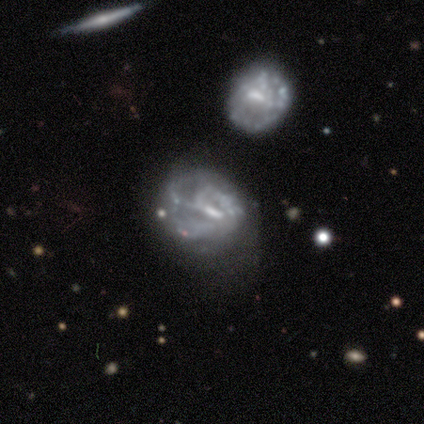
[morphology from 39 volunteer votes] Smooth or featured? 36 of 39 (92%) said featured or disk. Edge-on disk? 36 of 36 (100%) said no. Bar? 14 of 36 (39%) said weak. Spiral arms? 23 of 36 (64%) said yes. Spiral winding? 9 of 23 (39%) said tight. Spiral arm count? 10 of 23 (43%) said can't tell. Bulge size? 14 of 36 (39%) said none. Merging? 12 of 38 (32%, tied with major disturbance) said none.